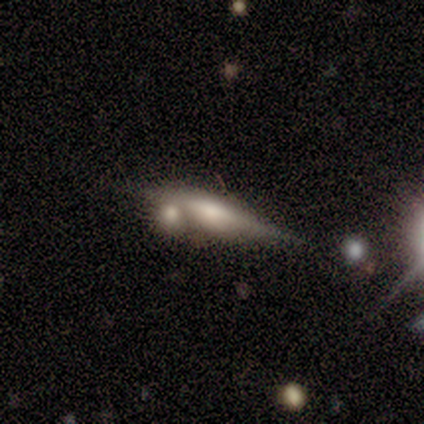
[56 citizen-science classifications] smooth_or_featured: featured or disk (p=0.73) [alt: smooth p=0.18]
disk_edge_on: yes (p=0.98) [alt: no p=0.02]
edge_on_bulge: rounded (p=0.82) [alt: boxy p=0.12]
merging: none (p=0.39) [tied with: merger p=0.39]